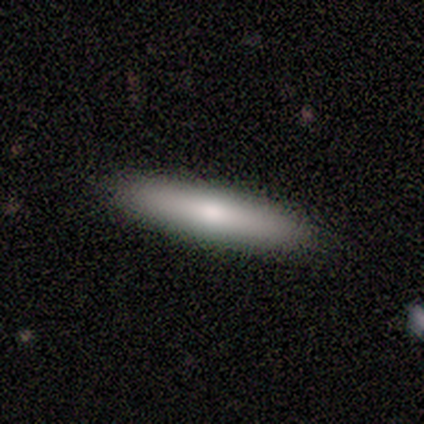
Smooth or featured: smooth — 80% (featured or disk — 20%)
How rounded: cigar-shaped — 100%
Merging: none — 100%